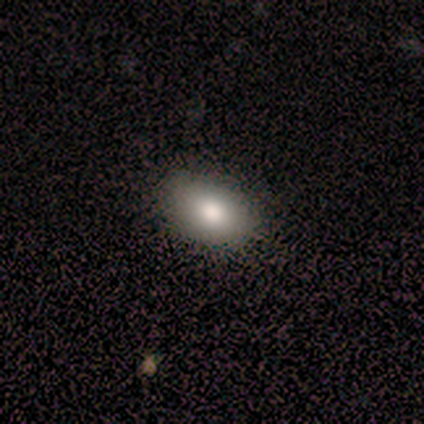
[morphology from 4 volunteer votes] Smooth or featured? smooth (100%)
How rounded? in between (75%)
Merging? none (100%)